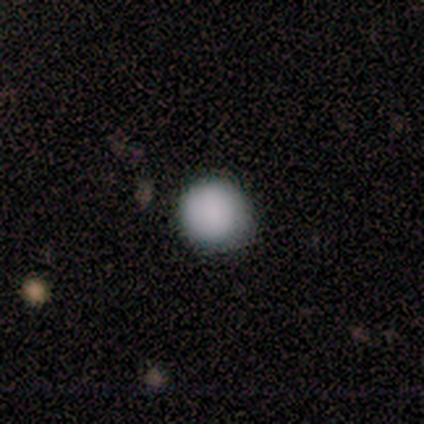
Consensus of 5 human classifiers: A smooth galaxy with no disk features (100%) that is round (100%). Merging: none (80%).